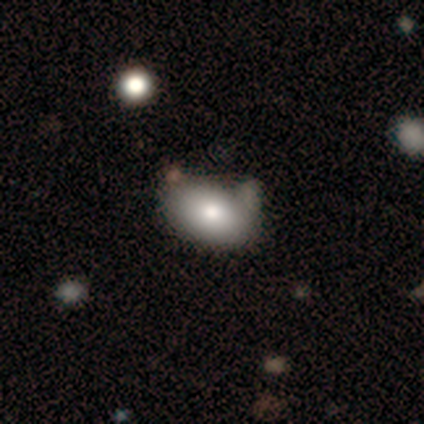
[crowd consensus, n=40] Smooth or featured: smooth — 88% (featured or disk — 12%)
How rounded: in between — 100%
Merging: none — 42% (minor disturbance — 20%)